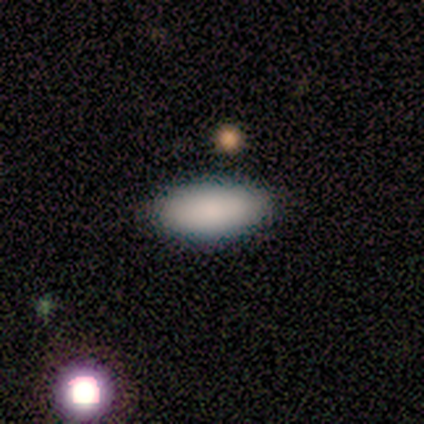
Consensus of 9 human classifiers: A smooth galaxy with no disk features (89%) that is in between round and cigar-shaped (88%).

Vote fractions:
- Smooth or featured? smooth: 89% / featured or disk: 11% / star or artifact: 0%
- How rounded? in between: 88% / cigar-shaped: 12% / round: 0%
- Merging? none: 89% / minor disturbance: 11% / major disturbance: 0% / merger: 0%